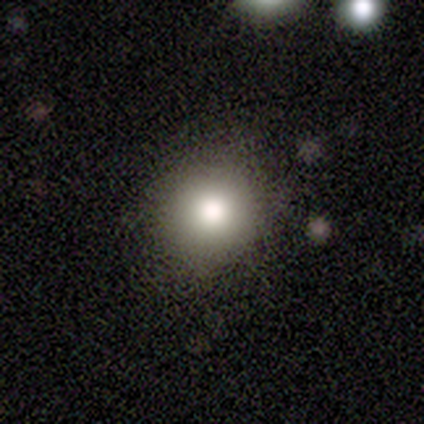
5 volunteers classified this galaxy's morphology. smooth 80%, star or artifact 20%, featured or disk 0%. Down the decision tree: how rounded — round (75%); merging — none (75%).